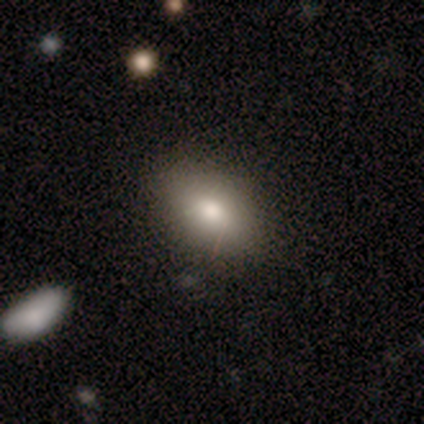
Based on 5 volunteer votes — Smooth or featured? smooth (80%)
How rounded? in between (100%)
Merging? none (100%)